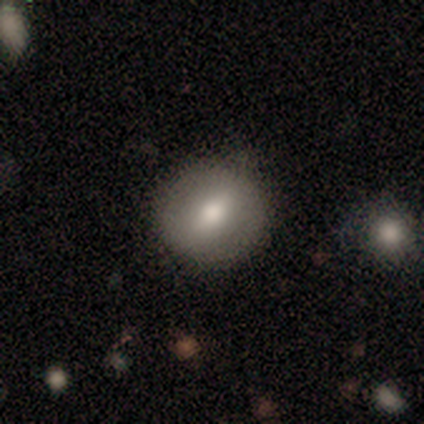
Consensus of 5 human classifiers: A smooth galaxy with no disk features (60%) that is round (100%). Merging: none (80%).